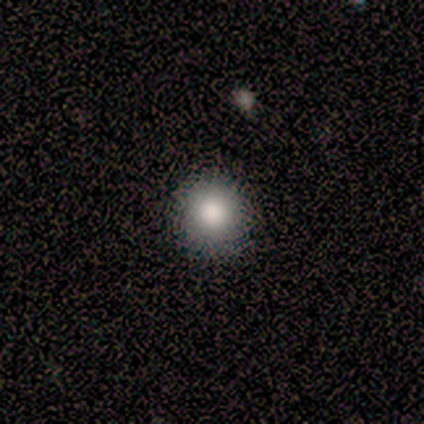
smooth 50%, featured or disk 25%, star or artifact 25%. Down the decision tree: how rounded — round (100%); merging — none (100%).